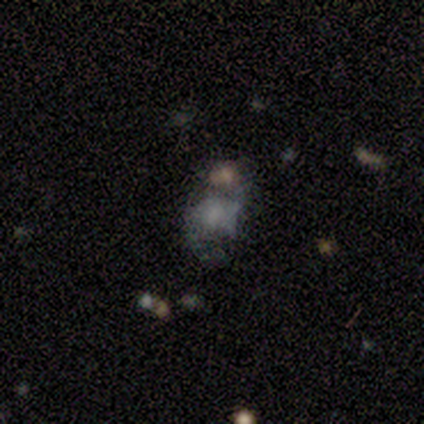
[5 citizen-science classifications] Smooth or featured: featured or disk — 80% (smooth — 20%)
Edge-on disk: no — 100%
Bar: no — 100%
Spiral arms: no — 75% (yes — 25%)
Bulge size: none — 50% (moderate — 25%)
Merging: minor disturbance — 40% (tied with merger — 40%)